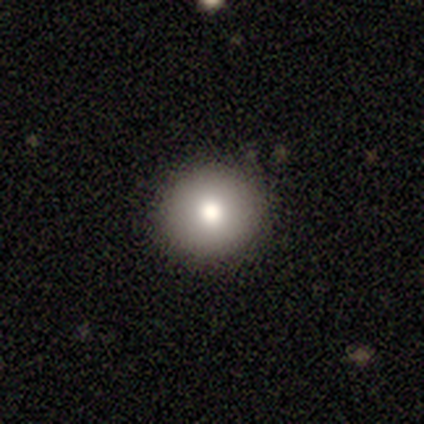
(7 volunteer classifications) This is possibly a smooth galaxy (57%). How rounded: clearly round (100%). Merging: clearly none (100%).